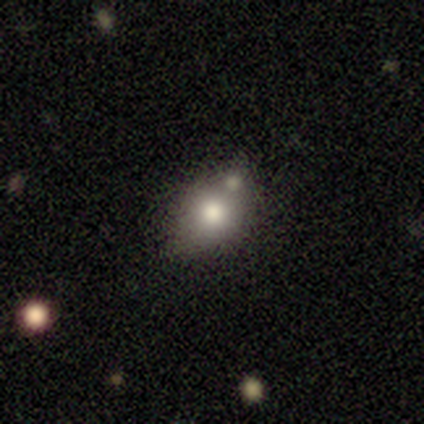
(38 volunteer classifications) Smooth or featured: smooth — 71% (featured or disk — 21%)
How rounded: in between — 52% (round — 44%)
Merging: none — 49% (merger — 40%)